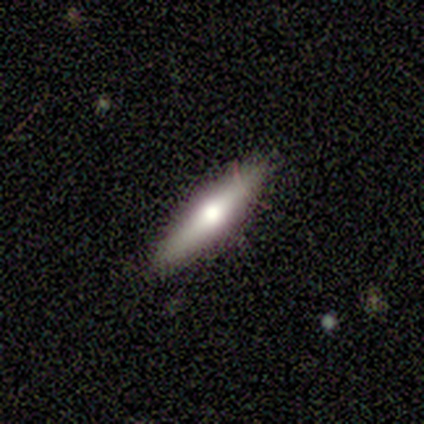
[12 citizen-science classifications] A smooth galaxy with no disk features (58%) that is cigar-shaped (57%). Merging: none (82%).